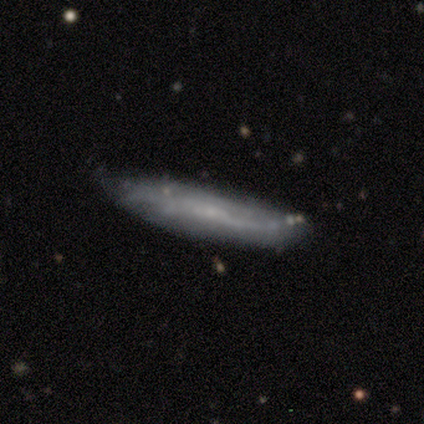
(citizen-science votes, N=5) A featured or disk galaxy (60%) with a strong bar (67%), no spiral arms (67%) and a moderate central bulge (67%).

Vote fractions:
- Smooth or featured? featured or disk: 60% / smooth: 40% / star or artifact: 0%
- Edge-on disk? no: 100% / yes: 0%
- Bar? strong: 67% / no: 33% / weak: 0%
- Spiral arms? no: 67% / yes: 33%
- Bulge size? moderate: 67% / none: 33% / dominant: 0% / large: 0% / small: 0%
- Merging? none: 60% / minor disturbance: 40% / major disturbance: 0% / merger: 0%